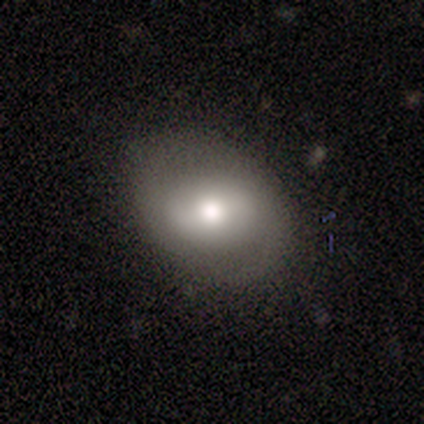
A smooth galaxy with no disk features (54%) that is round (57%).

Vote fractions:
- Smooth or featured? smooth: 54% / featured or disk: 38% / star or artifact: 8%
- How rounded? round: 57% / in between: 43% / cigar-shaped: 0%
- Merging? none: 39% / minor disturbance: 8% / merger: 3% / major disturbance: 1%